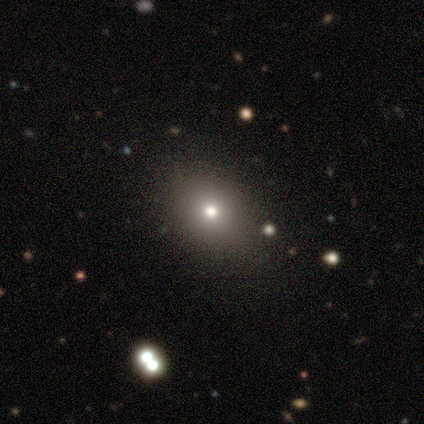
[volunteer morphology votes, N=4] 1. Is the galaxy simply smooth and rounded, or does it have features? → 50% star or artifact, 25% smooth, 25% featured or disk.